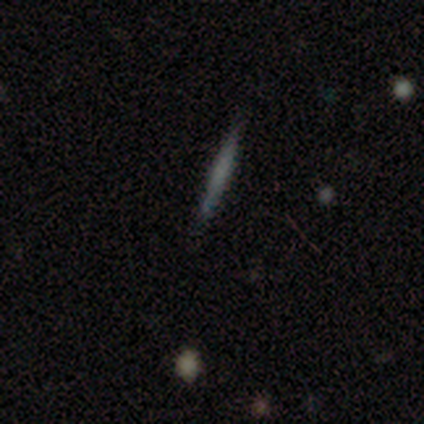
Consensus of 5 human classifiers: A featured or disk galaxy (60%) viewed edge-on (67%) with a boxy central bulge (50%, tied with none).

Vote fractions:
- Smooth or featured? featured or disk: 60% / smooth: 40% / star or artifact: 0%
- Edge-on disk? yes: 67% / no: 33%
- Edge-on bulge? boxy: 50% (tied) / none: 50% (tied) / rounded: 0%
- Merging? none: 80% / minor disturbance: 20% / major disturbance: 0% / merger: 0%